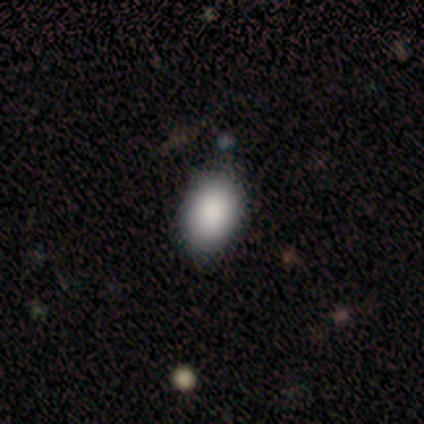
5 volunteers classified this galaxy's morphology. smooth 60%, featured or disk 20%, star or artifact 20%. Down the decision tree: how rounded — in between (100%); merging — none (75%).